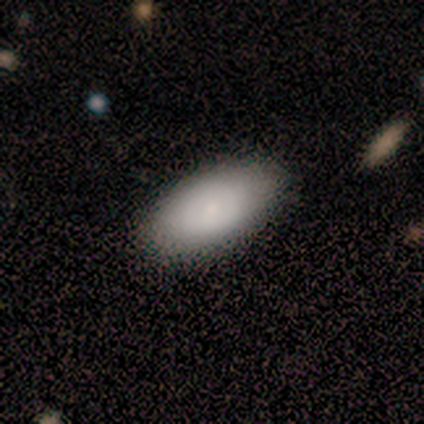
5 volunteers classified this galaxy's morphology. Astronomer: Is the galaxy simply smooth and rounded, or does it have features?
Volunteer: smooth — 60% (runner-up: featured or disk, 40%).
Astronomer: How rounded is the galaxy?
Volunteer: in between — 100%.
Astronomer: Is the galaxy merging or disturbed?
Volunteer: none — 100%.